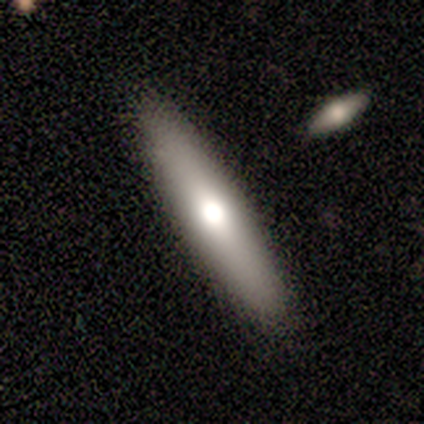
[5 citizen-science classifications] Smooth or featured?
  - smooth: 60% *
  - featured or disk: 40%
  - star or artifact: 0%
How rounded?
  - cigar-shaped: 100% *
  - round: 0%
  - in between: 0%
Merging?
  - none: 100% *
  - minor disturbance: 0%
  - major disturbance: 0%
  - merger: 0%